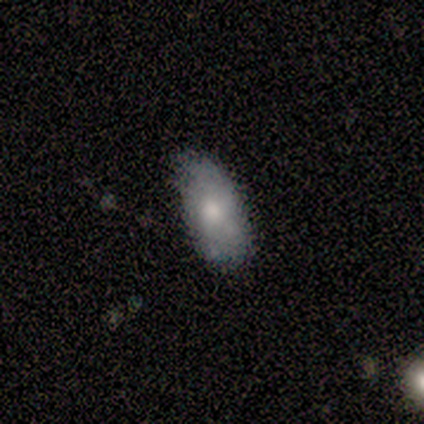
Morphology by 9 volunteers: type=smooth (56%); roundness=in between (100%); merging=none (78%).